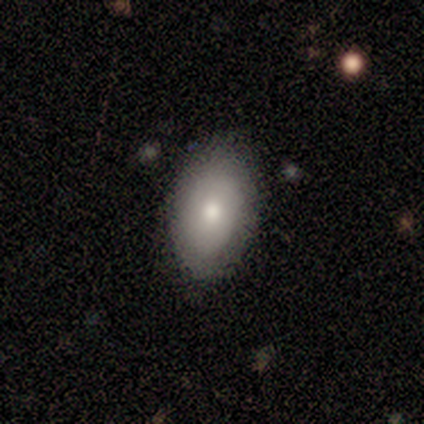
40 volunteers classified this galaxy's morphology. Overall: smooth (78%). How rounded: in between (84%). Merging: none (76%).